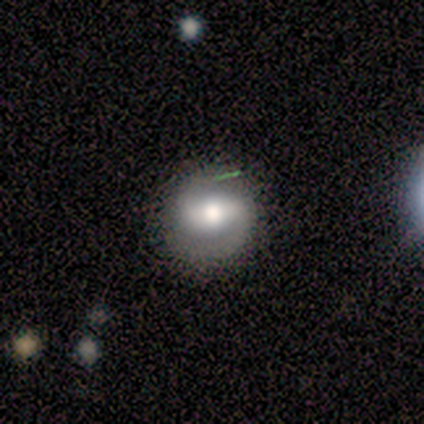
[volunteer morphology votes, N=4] Volunteers were most divided on "spiral winding" (3-way tie): tight: 33%, medium: 33%, loose: 33%. More confident: edge-on disk — no (100%); spiral arms — yes (100%); spiral arm count — 2 (100%); smooth or featured — featured or disk (75%); bar — strong (67%); bulge size — moderate (67%); merging — none (67%).